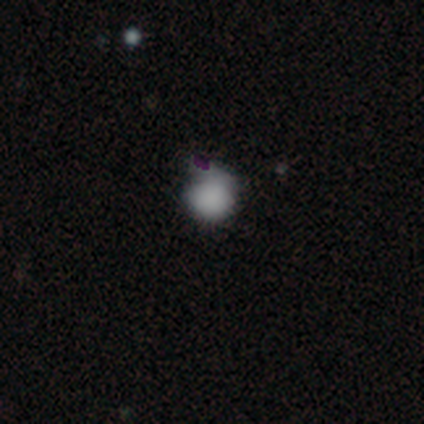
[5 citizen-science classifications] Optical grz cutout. It shows a smooth galaxy with no disk features (80%) that is round (75%). Merging: major disturbance (75%).